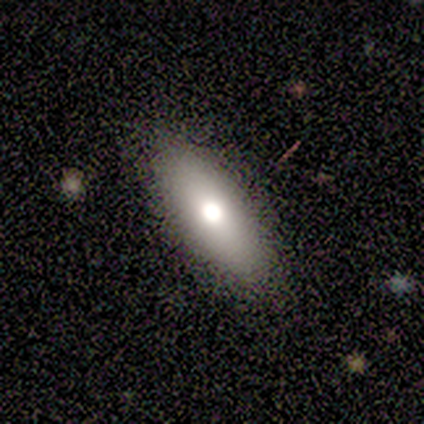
Volunteers were most divided on "how rounded": in between: 60%, cigar-shaped: 37%, round: 3%. More confident: merging — none (92%); smooth or featured — smooth (75%).